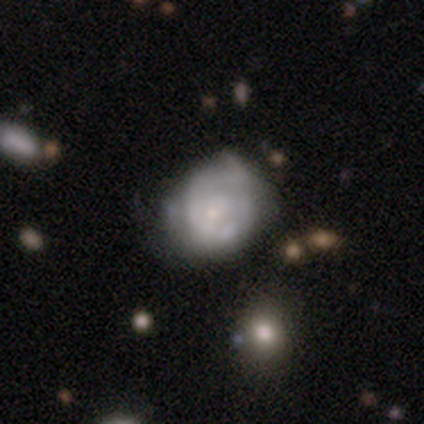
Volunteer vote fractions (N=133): This is likely a featured or disk galaxy (65%). It is clearly not viewed edge-on (95%). Bar: clearly no (83%). Spiral arm pattern: likely yes (61%). Spiral arm count: likely can't tell (69%). Spiral winding: possibly tight (57%). Central bulge: likely small (73%). Merging: marginally none (42%).